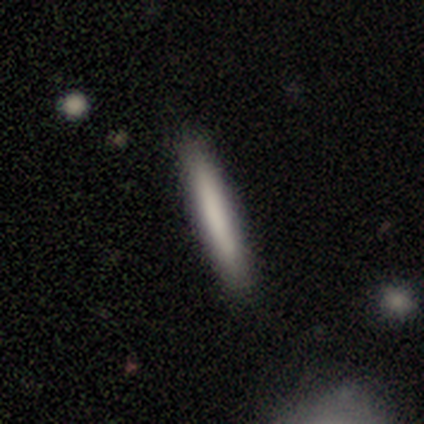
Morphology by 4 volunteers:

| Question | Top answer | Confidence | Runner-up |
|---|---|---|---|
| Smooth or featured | smooth | 75% | featured or disk (25%) |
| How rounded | cigar-shaped | 100% | — |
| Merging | none | 100% | — |